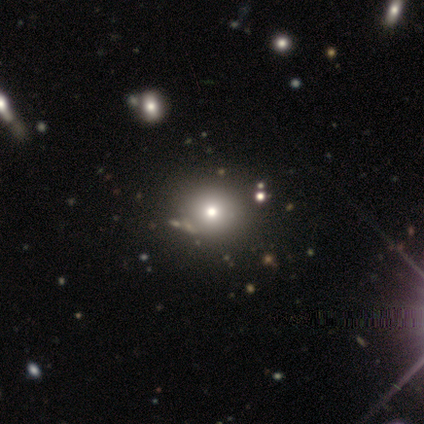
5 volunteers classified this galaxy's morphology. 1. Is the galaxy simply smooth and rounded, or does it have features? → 40% smooth (tied), 40% star or artifact (tied), 20% featured or disk.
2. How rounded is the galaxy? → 100% round, 0% in between, 0% cigar-shaped.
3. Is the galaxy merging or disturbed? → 100% none, 0% minor disturbance, 0% major disturbance, 0% merger.